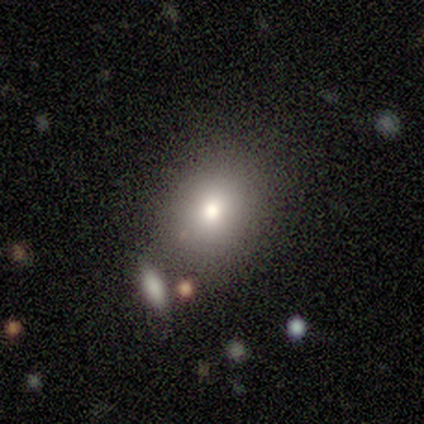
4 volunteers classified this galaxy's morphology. Smooth or featured? smooth (75%)
How rounded? round (67%)
Merging? none (67%)